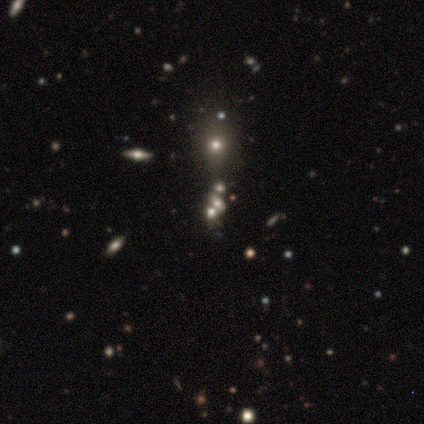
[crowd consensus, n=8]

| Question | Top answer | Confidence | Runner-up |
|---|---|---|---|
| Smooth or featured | star or artifact | 50% | smooth (25%) |